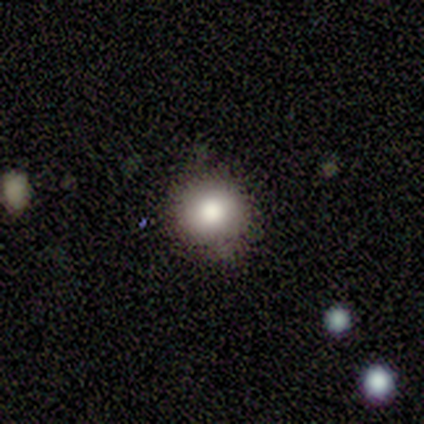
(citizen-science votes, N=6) Smooth or featured: smooth — 100%
How rounded: round — 83% (in between — 17%)
Merging: none — 83% (minor disturbance — 17%)